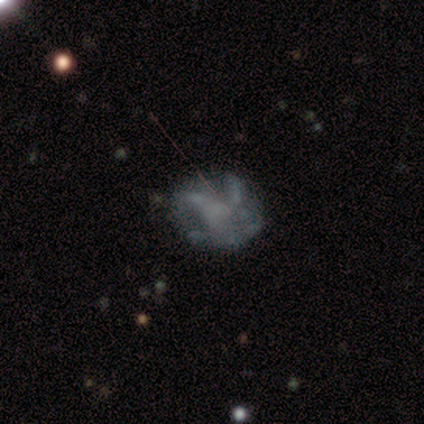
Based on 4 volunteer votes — Smooth or featured?
  - featured or disk: 50% * (tied)
  - star or artifact: 50% * (tied)
  - smooth: 0%
Edge-on disk?
  - no: 100% *
  - yes: 0%
Bar?
  - weak: 100% *
  - strong: 0%
  - no: 0%
Spiral arms?
  - yes: 100% *
  - no: 0%
Spiral winding?
  - medium: 50% * (tied)
  - loose: 50% * (tied)
  - tight: 0%
Spiral arm count?
  - 4: 50% * (tied)
  - can't tell: 50% * (tied)
  - 1: 0%
  - 2: 0%
  - 3: 0%
  - more than 4: 0%
Bulge size?
  - moderate: 50% * (tied)
  - none: 50% * (tied)
  - dominant: 0%
  - large: 0%
  - small: 0%
Merging?
  - none: 50% * (tied)
  - minor disturbance: 50% * (tied)
  - major disturbance: 0%
  - merger: 0%